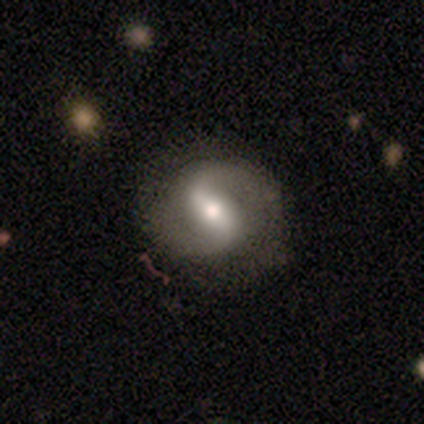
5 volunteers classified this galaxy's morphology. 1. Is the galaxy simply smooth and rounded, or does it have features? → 100% featured or disk, 0% smooth, 0% star or artifact.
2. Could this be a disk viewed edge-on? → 100% no, 0% yes.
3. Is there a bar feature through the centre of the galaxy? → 80% strong, 20% weak, 0% no.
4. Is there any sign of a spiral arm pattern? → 80% yes, 20% no.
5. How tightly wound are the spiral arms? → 50% loose, 25% tight, 25% medium.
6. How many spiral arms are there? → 100% 2, 0% 1, 0% 3, 0% 4, 0% more than 4, 0% can't tell.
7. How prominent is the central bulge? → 60% moderate, 40% large, 0% dominant, 0% small, 0% none.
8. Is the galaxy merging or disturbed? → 60% none, 20% minor disturbance, 20% major disturbance, 0% merger.